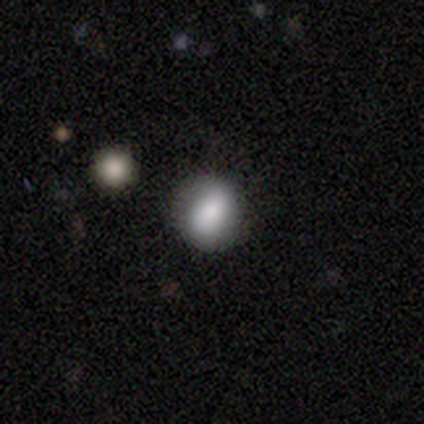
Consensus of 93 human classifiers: This appears to be a smooth galaxy with no disk features (78%) that is round (60%). Merging: none (74%).